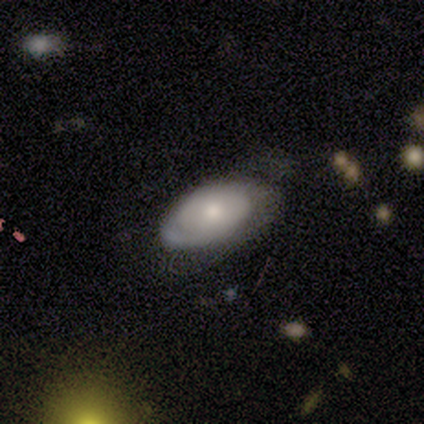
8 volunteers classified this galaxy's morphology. This is possibly a smooth galaxy (50%, tied with featured or disk). How rounded: clearly in between (100%). Merging: possibly none (50%).